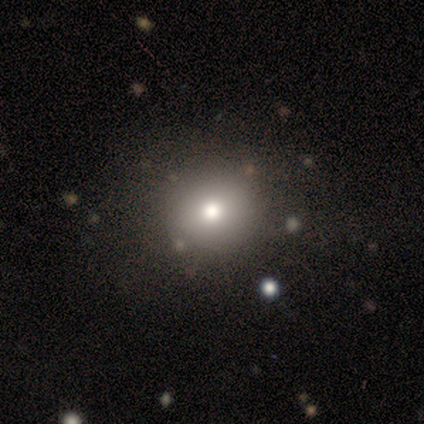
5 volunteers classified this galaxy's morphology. A smooth galaxy with no disk features (60%) that is round (100%).

Vote fractions:
- Smooth or featured? smooth: 60% / featured or disk: 20% / star or artifact: 20%
- How rounded? round: 100% / in between: 0% / cigar-shaped: 0%
- Merging? none: 75% / major disturbance: 25% / minor disturbance: 0% / merger: 0%